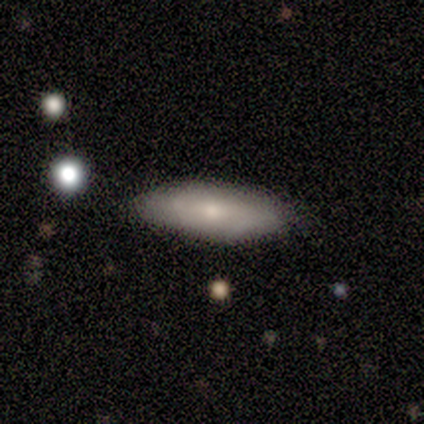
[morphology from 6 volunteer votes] Overall: smooth (50%, tied with featured or disk). How rounded: in between (67%; cigar-shaped 33%). Merging: none (83%).